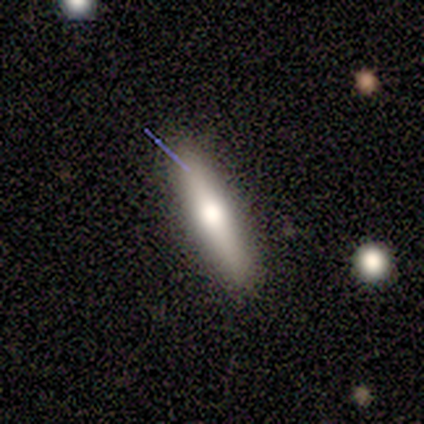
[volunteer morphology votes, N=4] smooth 50%, featured or disk 25%, star or artifact 25%. Down the decision tree: how rounded — cigar-shaped (100%); merging — none (67%).